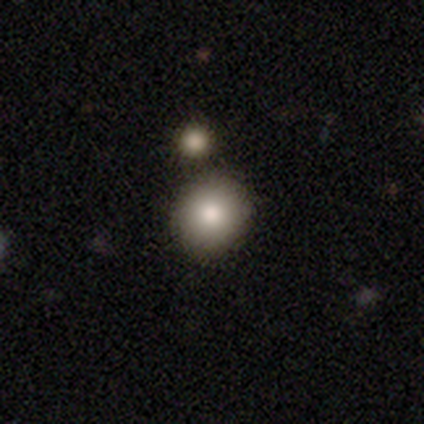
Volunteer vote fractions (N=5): smooth-or-featured: smooth: 80% | featured or disk: 20% | star or artifact: 0%
  how-rounded: round: 75% | in between: 25% | cigar-shaped: 0%
  merging: none: 60% | merger: 40% | minor disturbance: 0% | major disturbance: 0%